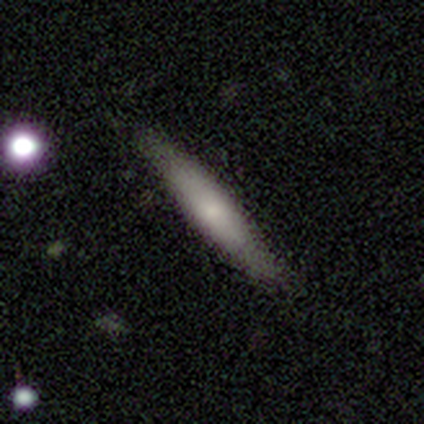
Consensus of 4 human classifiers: A smooth galaxy with no disk features (75%) that is cigar-shaped (100%).

Vote fractions:
- Smooth or featured? smooth: 75% / featured or disk: 25% / star or artifact: 0%
- How rounded? cigar-shaped: 100% / round: 0% / in between: 0%
- Merging? none: 100% / minor disturbance: 0% / major disturbance: 0% / merger: 0%